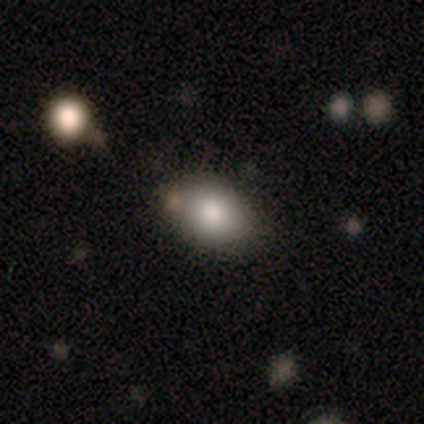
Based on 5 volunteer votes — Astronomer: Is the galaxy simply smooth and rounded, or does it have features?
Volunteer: smooth — 80%.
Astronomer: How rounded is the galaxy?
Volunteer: in between — 50%.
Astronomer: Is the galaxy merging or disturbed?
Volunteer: none — 100%.